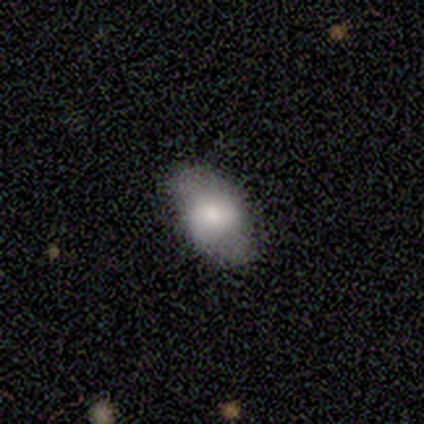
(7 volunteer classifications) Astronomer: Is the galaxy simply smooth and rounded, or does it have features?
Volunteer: smooth — 71%.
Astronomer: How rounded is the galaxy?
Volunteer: in between — 80%.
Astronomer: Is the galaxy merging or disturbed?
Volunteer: none — 86%.